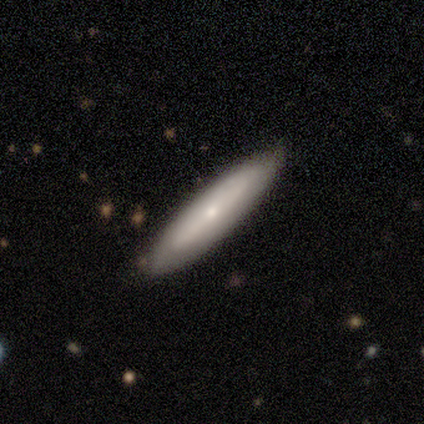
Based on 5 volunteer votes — Volunteers were most divided on "smooth or featured": smooth: 80%, featured or disk: 20%, star or artifact: 0%. More confident: how rounded — cigar-shaped (100%); merging — none (80%).